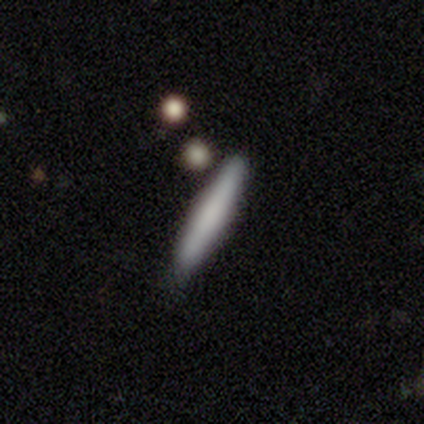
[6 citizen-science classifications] A smooth galaxy with no disk features (83%) that is cigar-shaped (60%).

Vote fractions:
- Smooth or featured? smooth: 83% / featured or disk: 17% / star or artifact: 0%
- How rounded? cigar-shaped: 60% / round: 20% / in between: 20%
- Merging? none: 67% / minor disturbance: 17% / merger: 17% / major disturbance: 0%